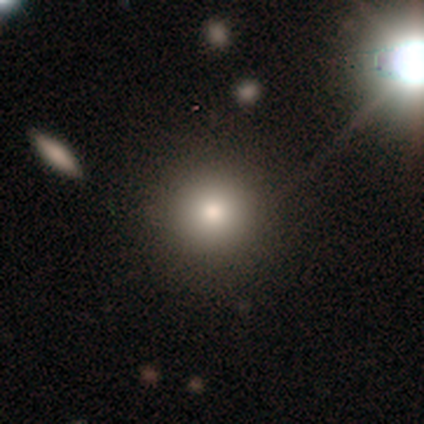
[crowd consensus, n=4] A smooth galaxy with no disk features (75%) that is round (100%).

Vote fractions:
- Smooth or featured? smooth: 75% / featured or disk: 25% / star or artifact: 0%
- How rounded? round: 100% / in between: 0% / cigar-shaped: 0%
- Merging? none: 100% / minor disturbance: 0% / major disturbance: 0% / merger: 0%